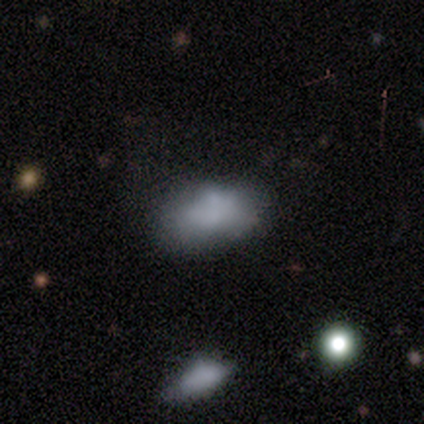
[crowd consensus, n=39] Smooth or featured? 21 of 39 (54%) said smooth. How rounded? 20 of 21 (95%) said in between. Merging? 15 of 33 (45%) said none.